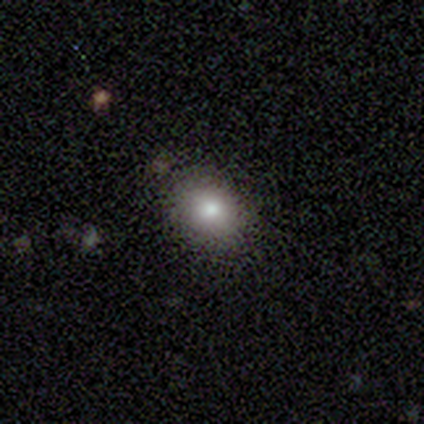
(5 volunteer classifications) Smooth or featured?
  - smooth: 40% * (tied)
  - star or artifact: 40% * (tied)
  - featured or disk: 20%
How rounded?
  - round: 100% *
  - in between: 0%
  - cigar-shaped: 0%
Merging?
  - none: 100% *
  - minor disturbance: 0%
  - major disturbance: 0%
  - merger: 0%